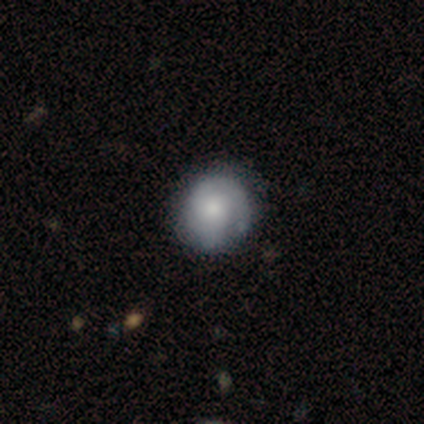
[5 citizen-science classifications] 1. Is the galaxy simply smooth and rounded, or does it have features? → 60% smooth, 40% featured or disk, 0% star or artifact.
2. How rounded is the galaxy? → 67% round, 33% in between, 0% cigar-shaped.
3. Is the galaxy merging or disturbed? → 60% none, 40% minor disturbance, 0% major disturbance, 0% merger.